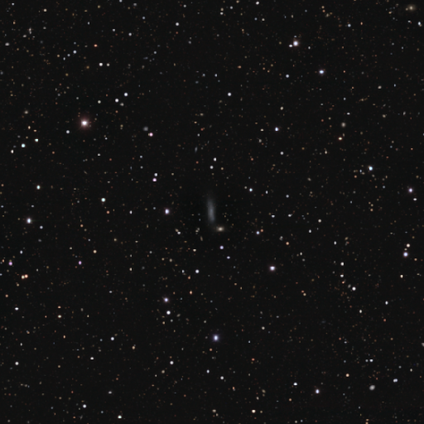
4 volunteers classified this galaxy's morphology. smooth_or_featured: featured or disk (p=0.75) [alt: star or artifact p=0.25]
disk_edge_on: yes (p=1.00)
edge_on_bulge: none (p=0.67) [alt: rounded p=0.33]
merging: minor disturbance (p=0.67) [alt: none p=0.33]